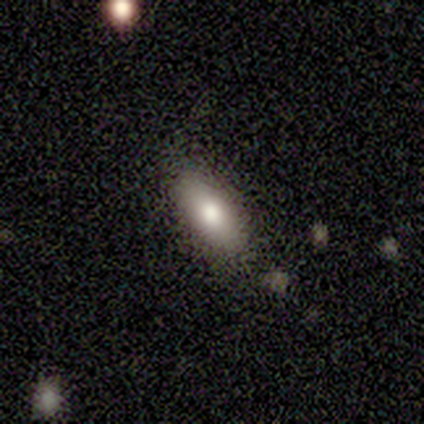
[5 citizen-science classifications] Morphology: type=featured or disk (60%); edge-on=no (67%); bar=weak (50%, tied with no); spiral arms=yes (50%, tied with no); winding=medium (100%); arm count=can't tell (100%); bulge=large (50%, tied with moderate); merging=none (60%).